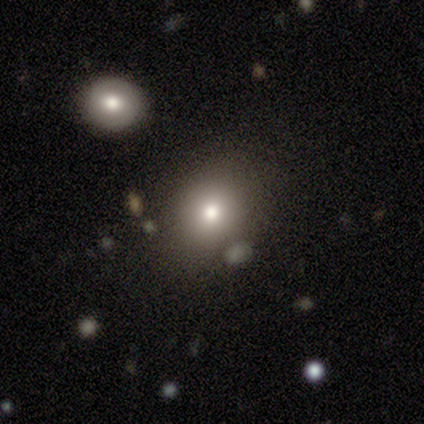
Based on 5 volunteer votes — smooth-or-featured: smooth: 80% | featured or disk: 20% | star or artifact: 0%
  how-rounded: round: 50% (tied) | in between: 50% (tied) | cigar-shaped: 0%
  merging: none: 40% (tied) | merger: 40% (tied) | minor disturbance: 20% | major disturbance: 0%